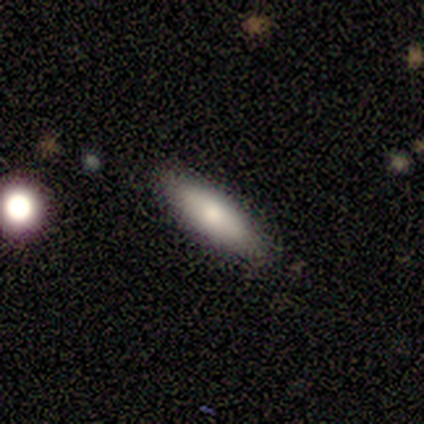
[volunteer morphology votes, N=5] This appears to be a smooth galaxy with no disk features (80%) that is cigar-shaped (75%). Merging: none (80%).